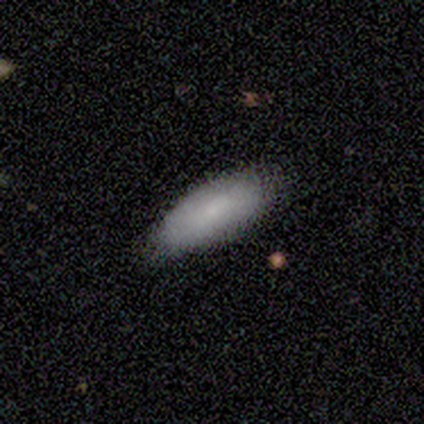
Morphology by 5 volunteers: smooth-or-featured: smooth: 80% | featured or disk: 20% | star or artifact: 0%
  how-rounded: in between: 75% | cigar-shaped: 25% | round: 0%
  merging: none: 80% | minor disturbance: 20% | major disturbance: 0% | merger: 0%